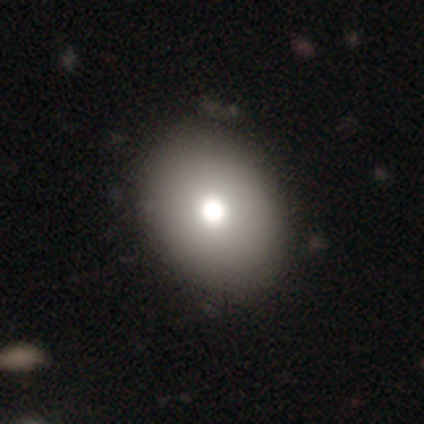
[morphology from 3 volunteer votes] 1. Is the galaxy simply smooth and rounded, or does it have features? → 100% smooth, 0% featured or disk, 0% star or artifact.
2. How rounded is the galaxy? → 67% round, 33% in between, 0% cigar-shaped.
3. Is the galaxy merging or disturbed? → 100% none, 0% minor disturbance, 0% major disturbance, 0% merger.